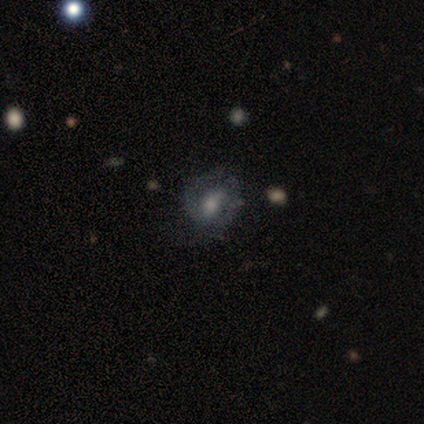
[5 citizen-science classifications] Smooth or featured?
  - featured or disk: 100% *
  - smooth: 0%
  - star or artifact: 0%
Edge-on disk?
  - no: 100% *
  - yes: 0%
Bar?
  - weak: 60% *
  - no: 40%
  - strong: 0%
Spiral arms?
  - yes: 60% *
  - no: 40%
Spiral winding?
  - tight: 67% *
  - medium: 33%
  - loose: 0%
Spiral arm count?
  - 2: 67% *
  - can't tell: 33%
  - 1: 0%
  - 3: 0%
  - 4: 0%
  - more than 4: 0%
Bulge size?
  - moderate: 80% *
  - none: 20%
  - dominant: 0%
  - large: 0%
  - small: 0%
Merging?
  - none: 100% *
  - minor disturbance: 0%
  - major disturbance: 0%
  - merger: 0%